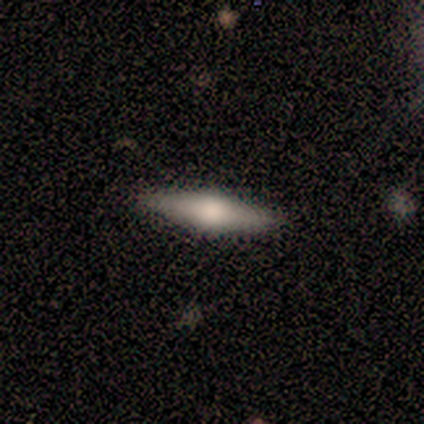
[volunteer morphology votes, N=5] This is likely a smooth galaxy (60%). How rounded: likely cigar-shaped (67%). Merging: clearly none (80%).